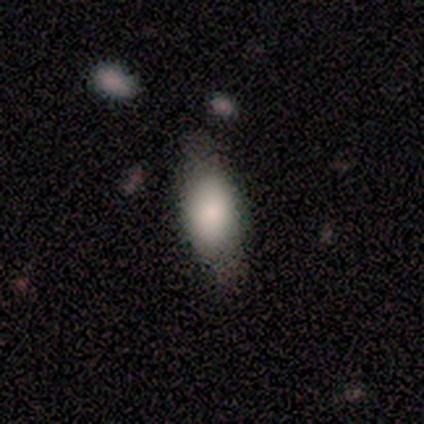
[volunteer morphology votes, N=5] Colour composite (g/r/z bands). It shows a smooth galaxy with no disk features (80%) that is in between round and cigar-shaped (75%). Merging: none (80%).